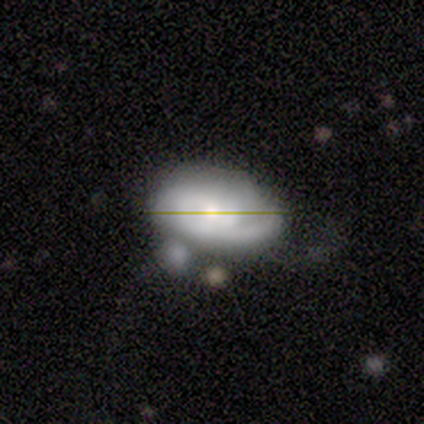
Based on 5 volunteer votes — Q: Smooth or featured?
A: star or artifact (60%); runner-up: featured or disk (40%)